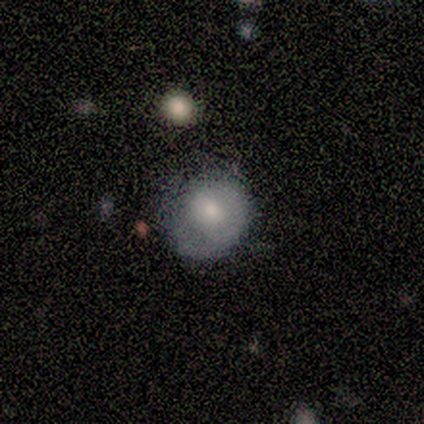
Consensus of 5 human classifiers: Overall: smooth (60%; featured or disk 40%). How rounded: in between (67%; round 33%). Merging: none (60%; minor disturbance 20%).